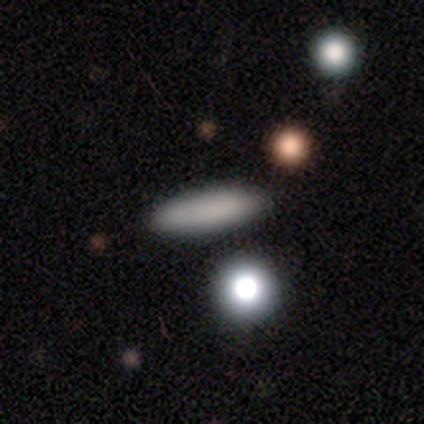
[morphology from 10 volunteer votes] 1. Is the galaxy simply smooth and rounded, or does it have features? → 70% smooth, 20% featured or disk, 10% star or artifact.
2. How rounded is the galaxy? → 71% cigar-shaped, 29% in between, 0% round.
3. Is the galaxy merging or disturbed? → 89% none, 11% major disturbance, 0% minor disturbance, 0% merger.